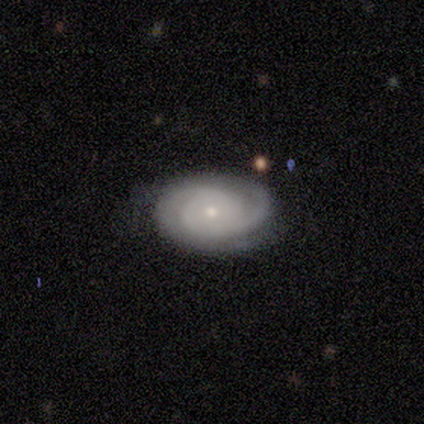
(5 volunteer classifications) Smooth or featured? 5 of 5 (100%) said featured or disk. Edge-on disk? 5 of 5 (100%) said no. Bar? 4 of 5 (80%) said no. Spiral arms? 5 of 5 (100%) said yes. Spiral winding? 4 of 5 (80%) said tight. Spiral arm count? 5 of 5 (100%) said 2. Bulge size? 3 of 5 (60%) said moderate. Merging? 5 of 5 (100%) said none.